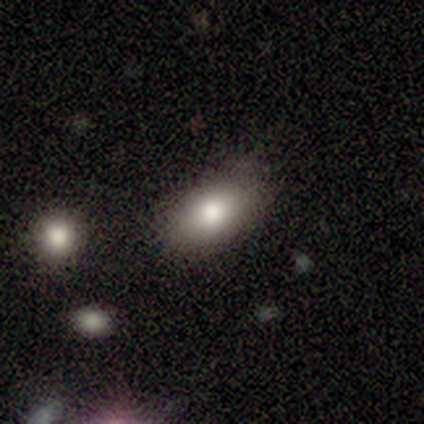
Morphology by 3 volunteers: type=star or artifact (67%).